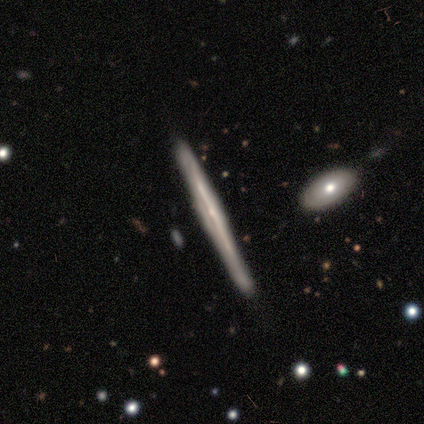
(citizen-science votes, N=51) Morphology: type=featured or disk (80%); edge-on=yes (95%); edge-on bulge=none (56%); merging=none (82%).